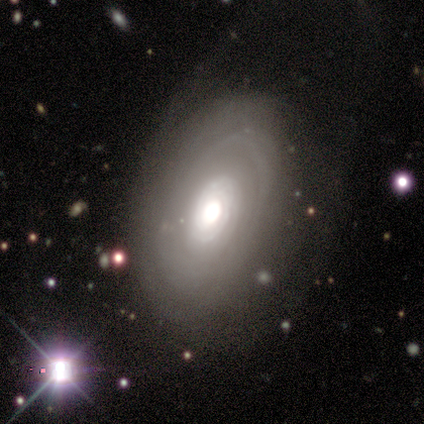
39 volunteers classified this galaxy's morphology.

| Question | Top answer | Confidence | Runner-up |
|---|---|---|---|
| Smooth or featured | featured or disk | 79% | smooth (10%) |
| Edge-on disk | no | 94% | yes (6%) |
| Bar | no | 90% | weak (7%) |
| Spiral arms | yes | 52% | no (48%) |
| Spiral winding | tight | 80% | medium (20%) |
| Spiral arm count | can't tell | 80% | 2 (7%) |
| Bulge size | moderate | 52% | large (45%) |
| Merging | none | 69% | minor disturbance (14%) |